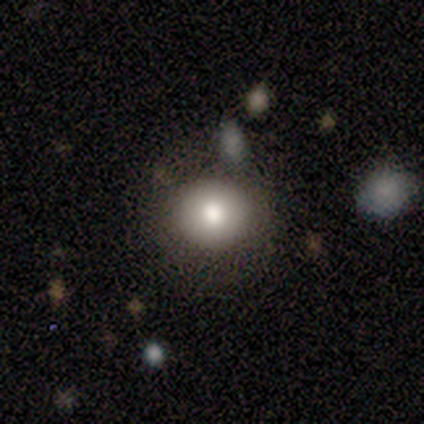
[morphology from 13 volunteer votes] This is likely a smooth galaxy (62%). How rounded: clearly round (88%). Merging: clearly none (90%).